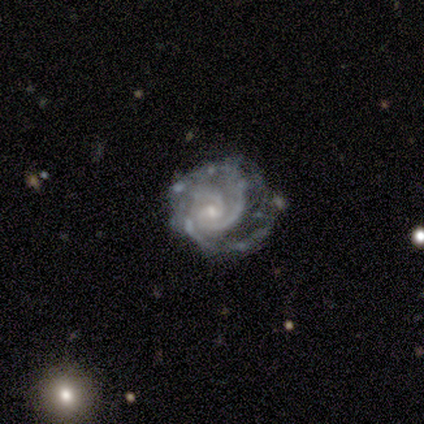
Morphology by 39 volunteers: Smooth or featured?
  - featured or disk: 95% *
  - smooth: 5%
  - star or artifact: 0%
Edge-on disk?
  - no: 97% *
  - yes: 3%
Bar?
  - no: 64% *
  - weak: 31%
  - strong: 6%
Spiral arms?
  - yes: 100% *
  - no: 0%
Spiral winding?
  - tight: 78% *
  - medium: 19%
  - loose: 3%
Spiral arm count?
  - 3: 47% *
  - 2: 39%
  - can't tell: 8%
  - 1: 3%
  - more than 4: 3%
  - 4: 0%
Bulge size?
  - small: 81% *
  - moderate: 17%
  - large: 3%
  - dominant: 0%
  - none: 0%
Merging?
  - none: 44% *
  - minor disturbance: 41%
  - major disturbance: 10%
  - merger: 5%